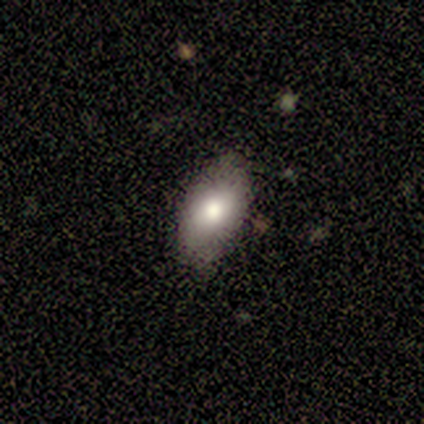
Smooth or featured? 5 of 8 (62%) said smooth. How rounded? 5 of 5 (100%) said in between. Merging? 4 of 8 (50%) said minor disturbance.